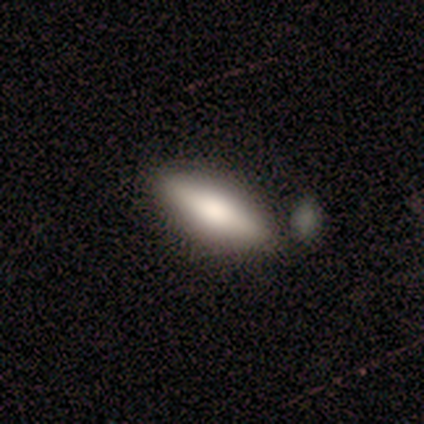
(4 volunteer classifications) Q: Smooth or featured?
A: smooth (50%); tied with: featured or disk (50%)
Q: How rounded?
A: in between (100%)
Q: Merging?
A: none (50%); runner-up: minor disturbance (25%)